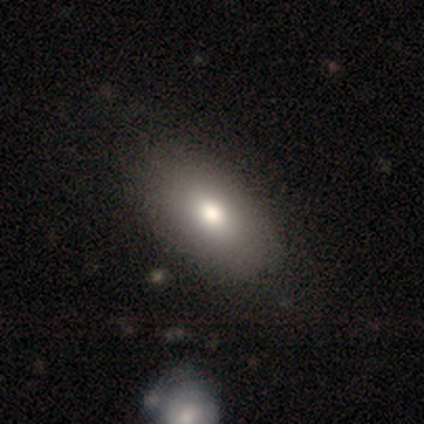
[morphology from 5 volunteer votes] smooth-or-featured: smooth: 60% | star or artifact: 40% | featured or disk: 0%
  how-rounded: in between: 100% | round: 0% | cigar-shaped: 0%
  merging: none: 100% | minor disturbance: 0% | major disturbance: 0% | merger: 0%